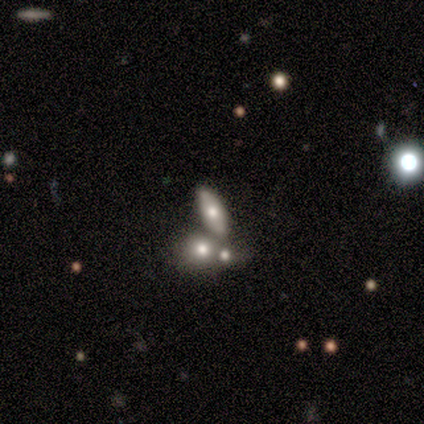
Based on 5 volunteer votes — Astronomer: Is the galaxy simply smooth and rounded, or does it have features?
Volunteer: featured or disk — 80%.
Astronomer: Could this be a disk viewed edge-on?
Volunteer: no — 75%.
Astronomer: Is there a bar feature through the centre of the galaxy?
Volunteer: no — 100%.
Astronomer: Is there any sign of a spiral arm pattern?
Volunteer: no — 100%.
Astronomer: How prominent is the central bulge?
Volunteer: moderate — 100%.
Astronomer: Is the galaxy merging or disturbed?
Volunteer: none — 80%.